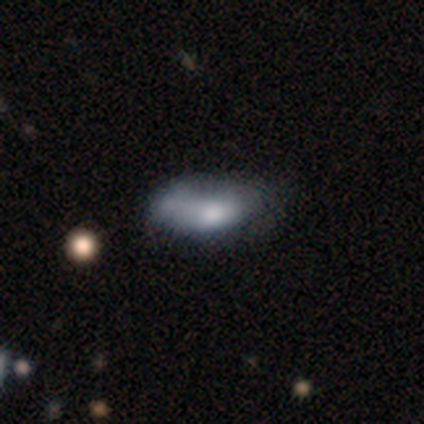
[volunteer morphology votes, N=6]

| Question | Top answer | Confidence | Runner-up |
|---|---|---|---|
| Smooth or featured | smooth | 50% | star or artifact (33%) |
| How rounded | in between | 100% | — |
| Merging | none | 75% | minor disturbance (25%) |